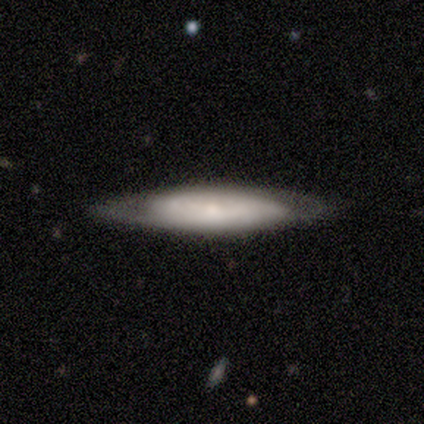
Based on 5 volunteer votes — Volunteers were most divided on "edge-on bulge" (2-way tie): boxy: 50%, rounded: 50%, none: 0%. More confident: merging — none (80%); edge-on disk — yes (67%); smooth or featured — featured or disk (60%).